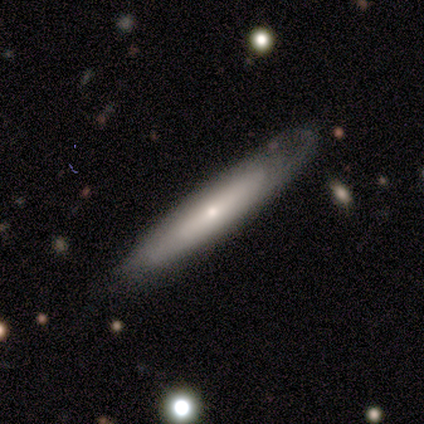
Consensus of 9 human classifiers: Volunteers were most divided on "edge-on disk": yes: 57%, no: 43%. More confident: smooth or featured — featured or disk (78%); edge-on bulge — rounded (75%); merging — minor disturbance (50%).